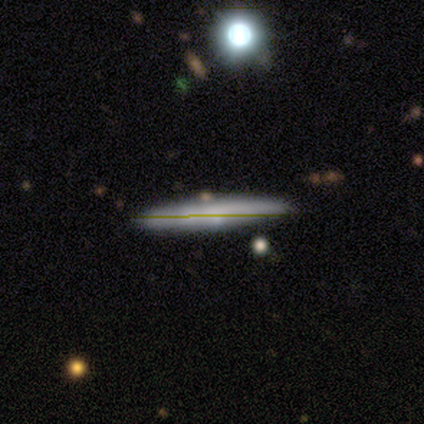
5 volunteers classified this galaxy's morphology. Smooth or featured: featured or disk — 80% (star or artifact — 20%)
Edge-on disk: yes — 100%
Edge-on bulge: boxy — 50% (none — 25%)
Merging: none — 75% (merger — 25%)